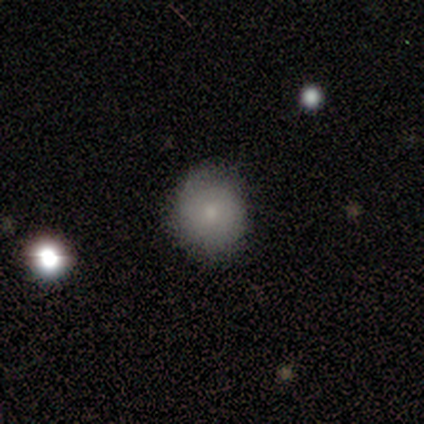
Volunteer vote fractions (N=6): A smooth galaxy with no disk features (67%) that is round (75%). Merging: none (80%).